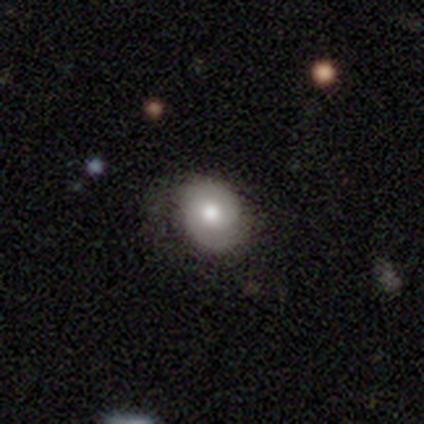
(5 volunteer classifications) A featured or disk galaxy (60%) with no bar (100%), 2 (50%, tied with can't tell) medium (50%, tied with loose) spiral arms (67%) and a moderate central bulge (100%).

Vote fractions:
- Smooth or featured? featured or disk: 60% / smooth: 20% / star or artifact: 20%
- Edge-on disk? no: 100% / yes: 0%
- Bar? no: 100% / strong: 0% / weak: 0%
- Spiral arms? yes: 67% / no: 33%
- Spiral winding? medium: 50% (tied) / loose: 50% (tied) / tight: 0%
- Spiral arm count? 2: 50% (tied) / can't tell: 50% (tied) / 1: 0% / 3: 0% / 4: 0% / more than 4: 0%
- Bulge size? moderate: 100% / dominant: 0% / large: 0% / small: 0% / none: 0%
- Merging? none: 75% / minor disturbance: 25% / major disturbance: 0% / merger: 0%